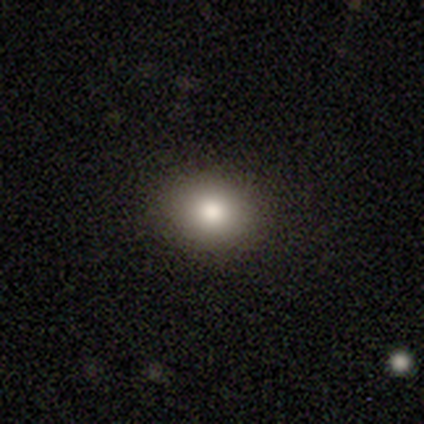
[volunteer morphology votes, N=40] Smooth or featured?
  - smooth: 88% *
  - featured or disk: 10%
  - star or artifact: 2%
How rounded?
  - round: 51% *
  - in between: 49%
  - cigar-shaped: 0%
Merging?
  - none: 69% *
  - minor disturbance: 5%
  - major disturbance: 3%
  - merger: 3%